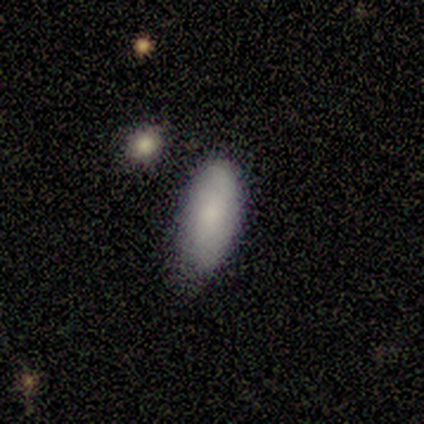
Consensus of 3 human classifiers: Overall: smooth (100%). How rounded: in between (67%; cigar-shaped 33%). Merging: minor disturbance (67%; none 33%).